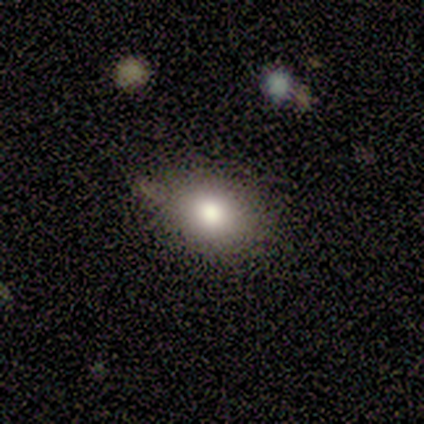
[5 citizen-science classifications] A smooth galaxy with no disk features (60%) that is in between round and cigar-shaped (67%). Merging: none (75%).